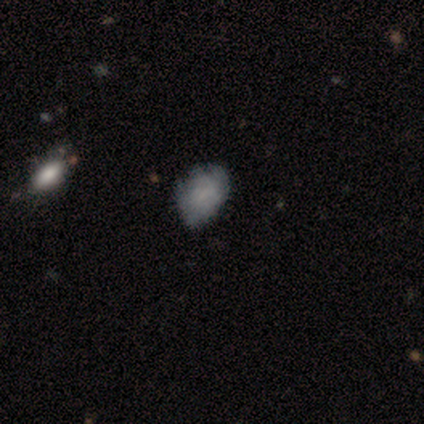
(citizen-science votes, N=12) Morphology: type=smooth (83%); roundness=in between (80%); merging=none (58%).